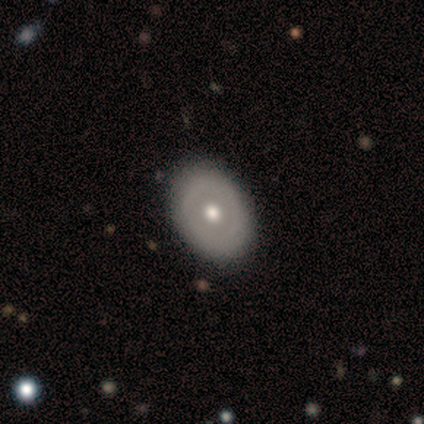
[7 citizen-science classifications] Smooth or featured: smooth — 57% (featured or disk — 43%)
How rounded: in between — 100%
Merging: none — 86% (merger — 14%)